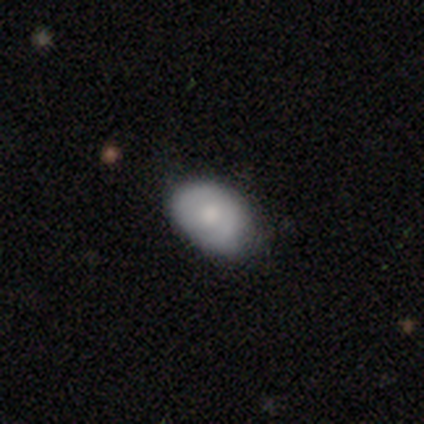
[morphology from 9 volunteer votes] Smooth or featured? 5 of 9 (56%) said smooth. How rounded? 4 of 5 (80%) said in between. Merging? 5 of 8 (62%) said none.